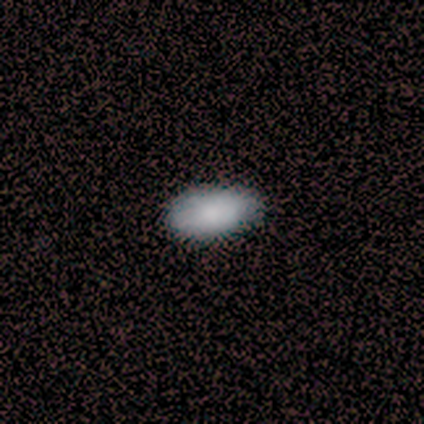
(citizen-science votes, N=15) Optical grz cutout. It shows a smooth galaxy with no disk features (93%) that is in between round and cigar-shaped (100%). Merging: none (87%).